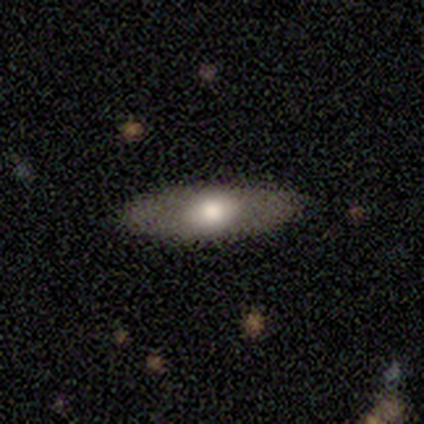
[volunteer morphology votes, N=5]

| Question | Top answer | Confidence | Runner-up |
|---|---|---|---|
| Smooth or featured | smooth | 80% | featured or disk (20%) |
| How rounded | in between | 50% | tied: cigar-shaped (50%) |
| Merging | none | 100% | — |